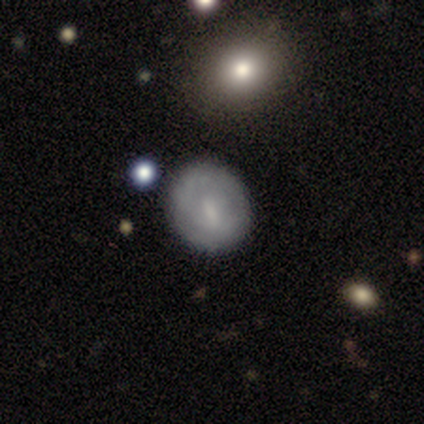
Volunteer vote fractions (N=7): This is possibly a smooth galaxy (57%). How rounded: likely round (75%). Merging: clearly none (83%).